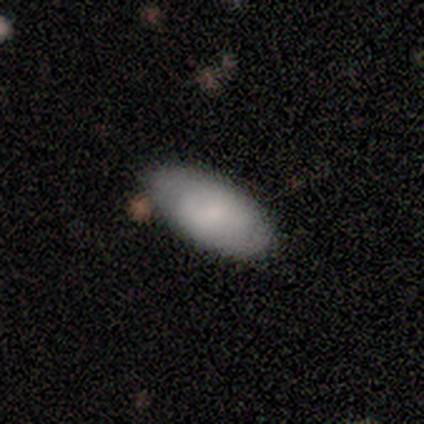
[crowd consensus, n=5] A smooth galaxy with no disk features (100%) that is in between round and cigar-shaped (100%). Merging: none (100%).